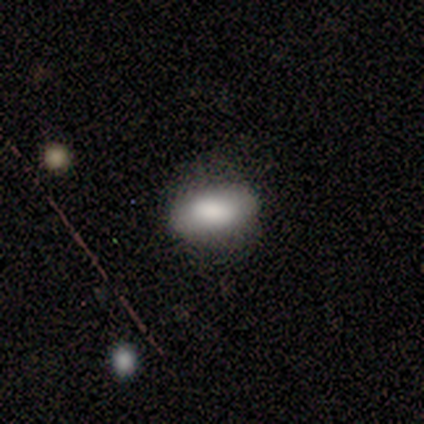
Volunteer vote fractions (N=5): This is clearly a smooth galaxy (100%). How rounded: likely in between (60%). Merging: clearly none (100%).